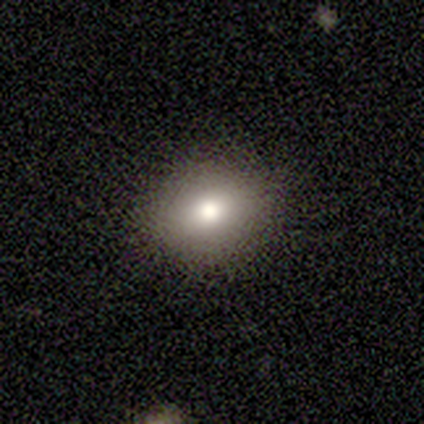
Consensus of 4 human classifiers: Smooth or featured? smooth (100%)
How rounded? round (50%, tied with in between)
Merging? none (100%)